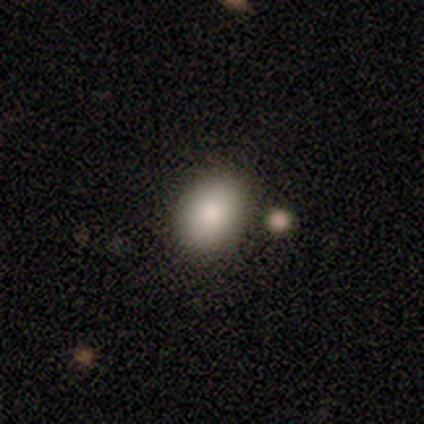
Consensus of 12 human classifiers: Morphology: type=smooth (75%); roundness=in between (100%); merging=none (91%).